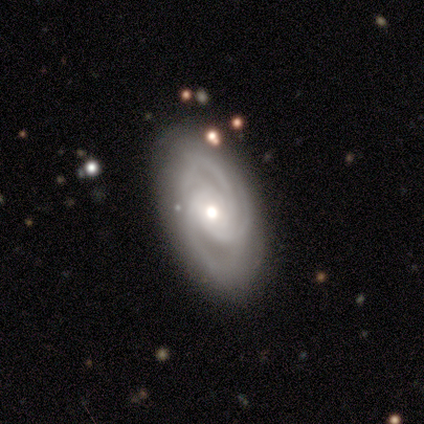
Volunteers were most divided on "spiral arm count" (2-way tie): 3: 40%, 4: 40%, 2: 20%, 1: 0%, more than 4: 0%, can't tell: 0%. More confident: smooth or featured — featured or disk (100%); edge-on disk — no (100%); spiral arms — yes (100%); merging — none (100%); bar — no (80%); spiral winding — tight (60%); bulge size — moderate (60%).